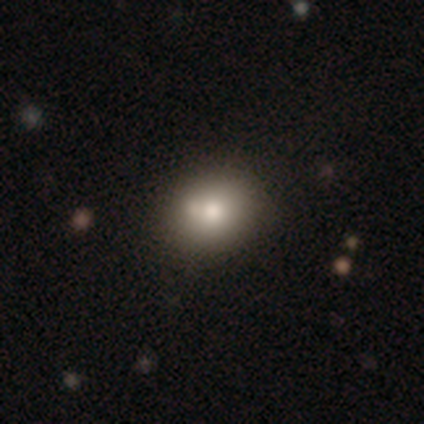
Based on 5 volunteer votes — This appears to be a smooth galaxy with no disk features (40%, tied with featured or disk) that is round (100%). Merging: none (75%).